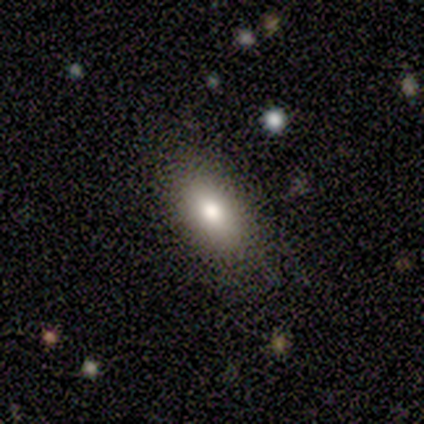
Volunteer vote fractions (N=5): This is clearly a smooth galaxy (100%). How rounded: clearly in between (100%). Merging: clearly none (100%).